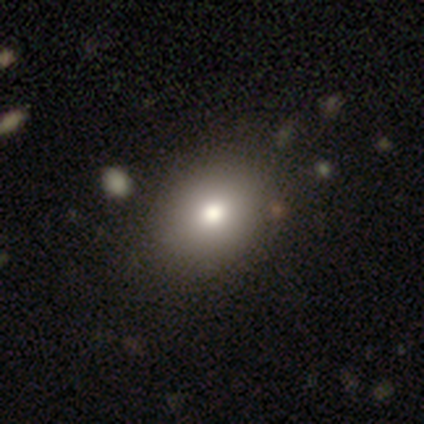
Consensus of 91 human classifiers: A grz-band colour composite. It shows a smooth galaxy with no disk features (76%) that is in between round and cigar-shaped (51%). Merging: none (85%).